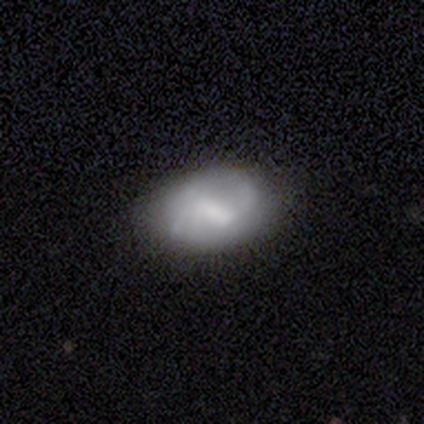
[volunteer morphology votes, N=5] smooth-or-featured: featured or disk: 60% | smooth: 40% | star or artifact: 0%
  disk-edge-on: no: 100% | yes: 0%
    bar: weak: 67% | no: 33% | strong: 0%
    has-spiral-arms: yes: 67% | no: 33%
      spiral-winding: medium: 50% (tied) | loose: 50% (tied) | tight: 0%
      spiral-arm-count: 2: 50% (tied) | 3: 50% (tied) | 1: 0% | 4: 0% | more than 4: 0% | can't tell: 0%
    bulge-size: none: 67% | moderate: 33% | dominant: 0% | large: 0% | small: 0%
  merging: none: 100% | minor disturbance: 0% | major disturbance: 0% | merger: 0%